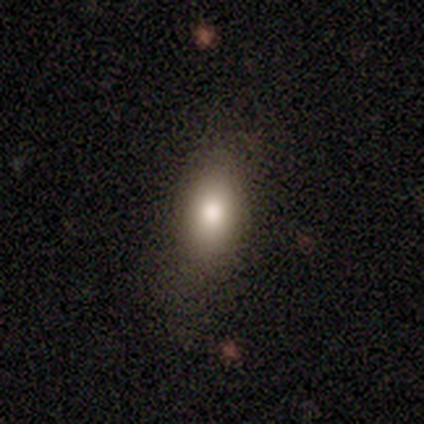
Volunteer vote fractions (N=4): Smooth or featured? smooth (100%)
How rounded? in between (100%)
Merging? none (100%)